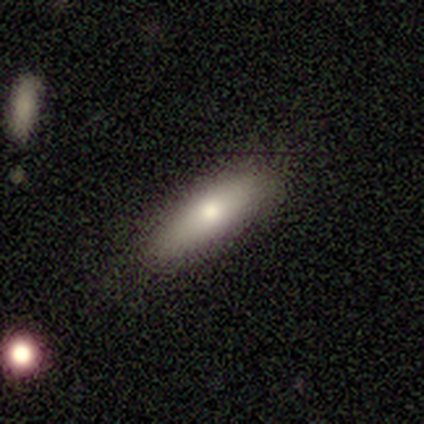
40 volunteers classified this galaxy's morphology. This appears to be a smooth galaxy with no disk features (70%) that is in between round and cigar-shaped (64%). Merging: none (90%).